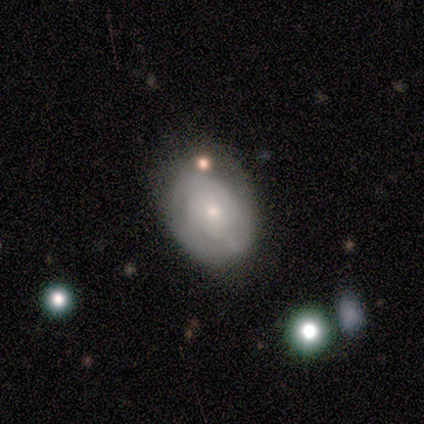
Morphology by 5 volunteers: Smooth or featured? 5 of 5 (100%) said featured or disk. Edge-on disk? 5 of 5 (100%) said no. Bar? 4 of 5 (80%) said no. Spiral arms? 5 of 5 (100%) said yes. Spiral winding? 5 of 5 (100%) said tight. Spiral arm count? 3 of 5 (60%) said can't tell. Bulge size? 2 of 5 (40%, tied with small) said moderate. Merging? 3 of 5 (60%) said none.